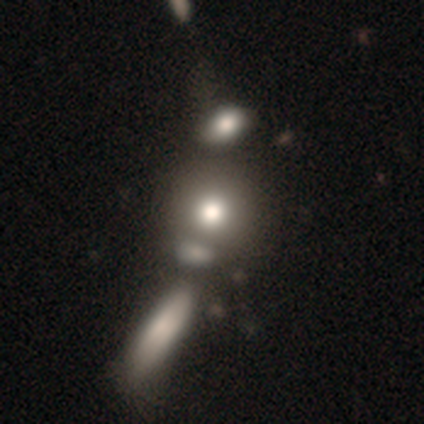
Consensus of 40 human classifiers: Volunteers were most divided on "merging" (2-way tie): none: 27%, merger: 27%, major disturbance: 6%, minor disturbance: 3%. More confident: how rounded — round (89%); smooth or featured — smooth (68%).